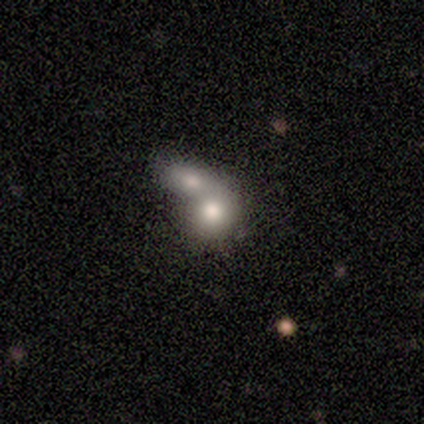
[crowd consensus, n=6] This appears to be a smooth galaxy with no disk features (83%) that is in between round and cigar-shaped (80%). Merging: merger (100%).